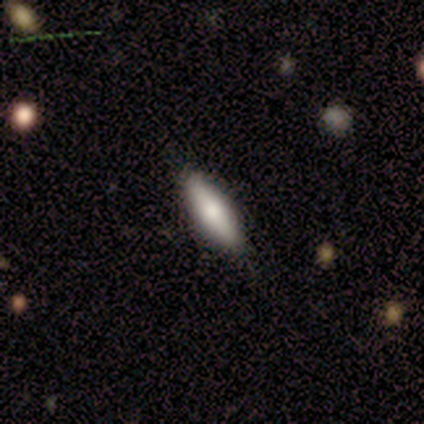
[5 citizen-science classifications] This is clearly a smooth galaxy (100%). How rounded: likely cigar-shaped (60%). Merging: likely none (60%).